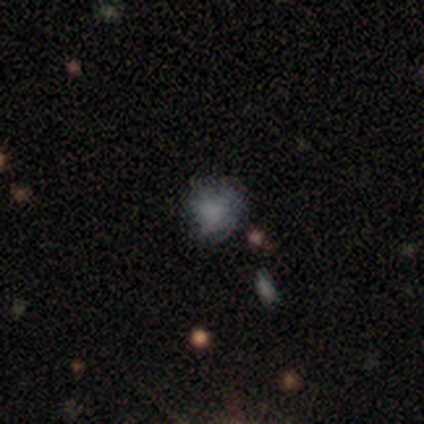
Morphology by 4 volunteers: smooth 100%, featured or disk 0%, star or artifact 0%. Down the decision tree: how rounded — round (75%); merging — none (75%).